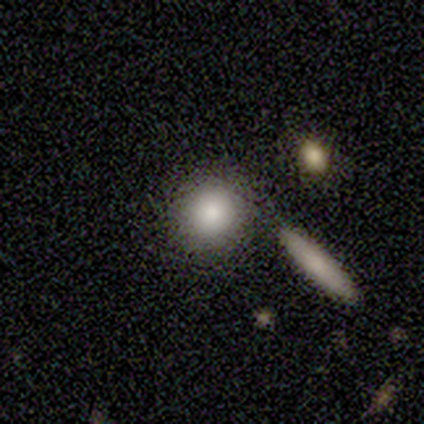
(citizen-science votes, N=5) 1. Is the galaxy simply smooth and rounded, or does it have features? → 100% smooth, 0% featured or disk, 0% star or artifact.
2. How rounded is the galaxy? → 80% round, 20% in between, 0% cigar-shaped.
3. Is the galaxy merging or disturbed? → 80% none, 20% minor disturbance, 0% major disturbance, 0% merger.